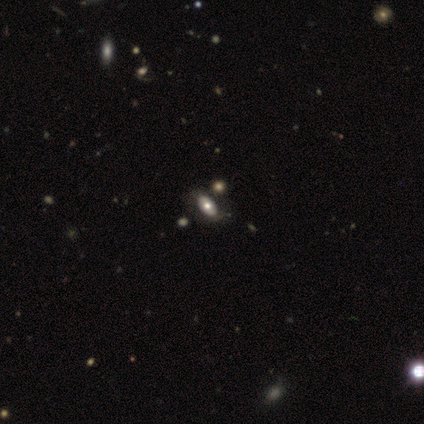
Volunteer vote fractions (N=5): Smooth or featured? smooth (80%)
How rounded? in between (100%)
Merging? none (100%)